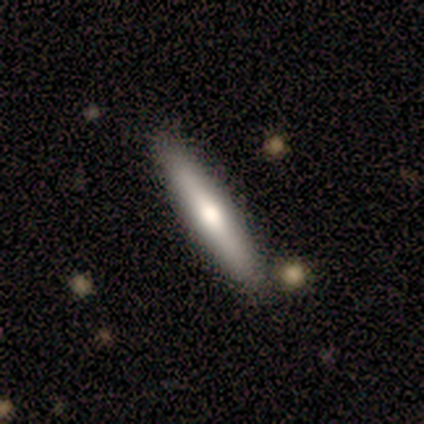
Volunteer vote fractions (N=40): Volunteers were most divided on "smooth or featured": smooth: 50%, featured or disk: 45%, star or artifact: 5%. More confident: how rounded — cigar-shaped (85%); merging — none (79%).